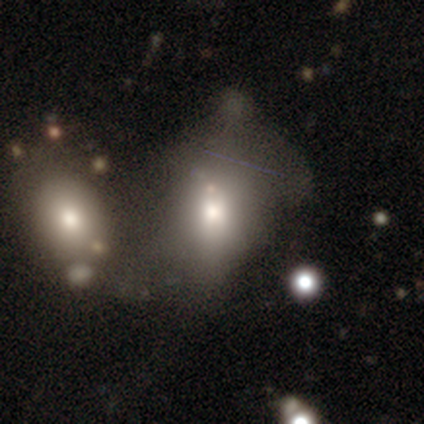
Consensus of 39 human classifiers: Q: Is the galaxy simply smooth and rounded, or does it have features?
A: smooth — 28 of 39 (72%).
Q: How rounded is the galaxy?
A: in between — 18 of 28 (64%).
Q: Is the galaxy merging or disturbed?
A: merger — 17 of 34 (50%).